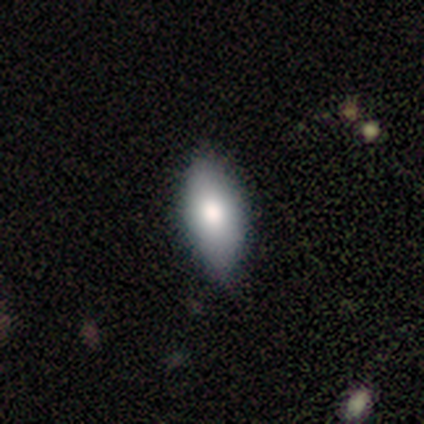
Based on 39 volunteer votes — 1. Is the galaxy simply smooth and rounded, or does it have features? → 79% smooth, 21% featured or disk, 0% star or artifact.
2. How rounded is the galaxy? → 87% in between, 13% cigar-shaped, 0% round.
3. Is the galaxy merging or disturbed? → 82% none, 18% minor disturbance, 0% major disturbance, 0% merger.